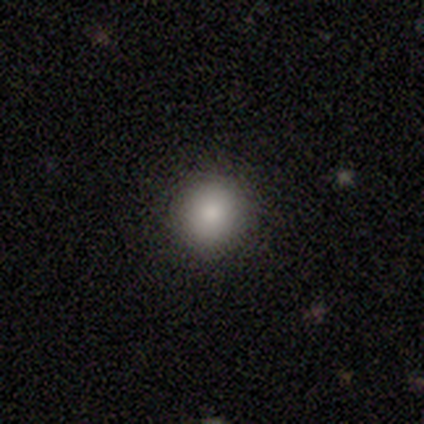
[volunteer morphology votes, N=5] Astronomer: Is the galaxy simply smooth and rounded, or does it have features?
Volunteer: smooth — 80%.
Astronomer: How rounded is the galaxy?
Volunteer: round — 100%.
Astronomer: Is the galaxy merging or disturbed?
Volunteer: none — 100%.